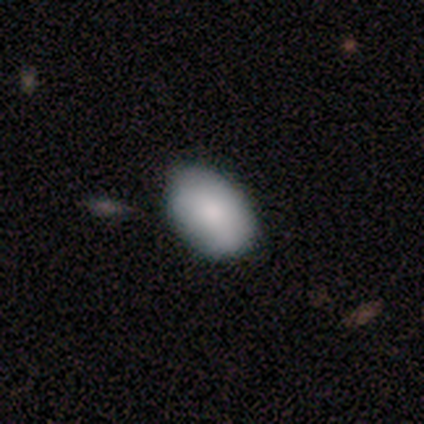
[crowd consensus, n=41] smooth 85%, featured or disk 10%, star or artifact 5%. Down the decision tree: how rounded — in between (100%); merging — none (49%).